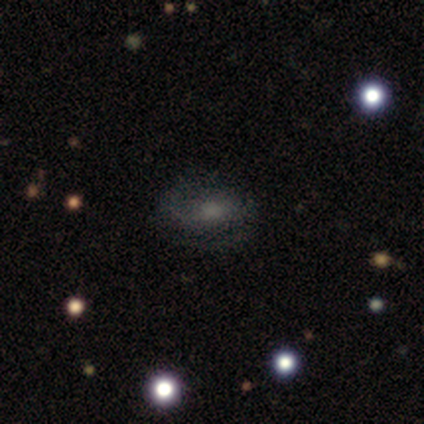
Smooth or featured?
  - featured or disk: 100% *
  - smooth: 0%
  - star or artifact: 0%
Edge-on disk?
  - no: 100% *
  - yes: 0%
Bar?
  - weak: 60% *
  - strong: 20%
  - no: 20%
Spiral arms?
  - yes: 100% *
  - no: 0%
Spiral winding?
  - tight: 40% * (tied)
  - loose: 40% * (tied)
  - medium: 20%
Spiral arm count?
  - 2: 80% *
  - can't tell: 20%
  - 1: 0%
  - 3: 0%
  - 4: 0%
  - more than 4: 0%
Bulge size?
  - moderate: 60% *
  - large: 40%
  - dominant: 0%
  - small: 0%
  - none: 0%
Merging?
  - none: 100% *
  - minor disturbance: 0%
  - major disturbance: 0%
  - merger: 0%